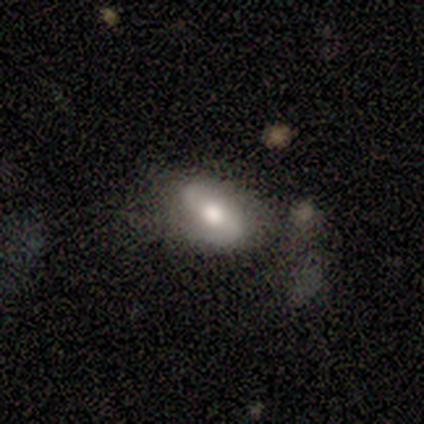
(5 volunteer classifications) Volunteers were most divided on "smooth or featured": smooth: 60%, featured or disk: 40%, star or artifact: 0%. More confident: how rounded — in between (100%); merging — none (60%).